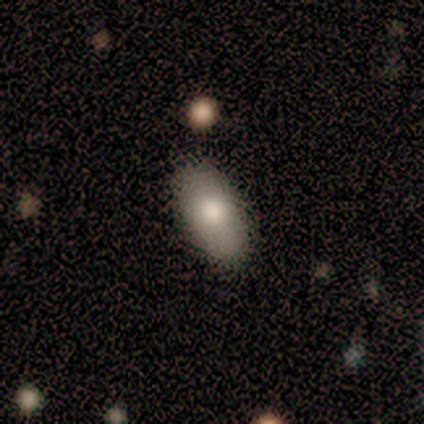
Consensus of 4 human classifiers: Volunteers were most divided on "smooth or featured": smooth: 75%, featured or disk: 25%, star or artifact: 0%. More confident: how rounded — in between (100%); merging — none (100%).